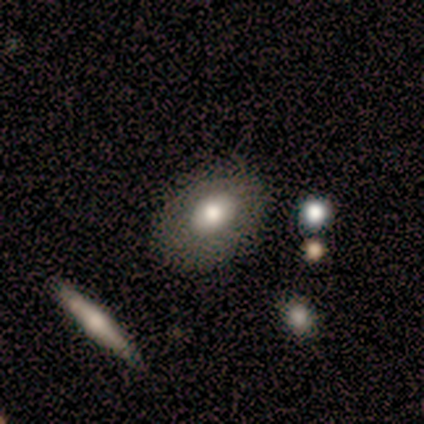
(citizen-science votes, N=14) Smooth or featured? smooth (64%)
How rounded? in between (100%)
Merging? minor disturbance (54%)